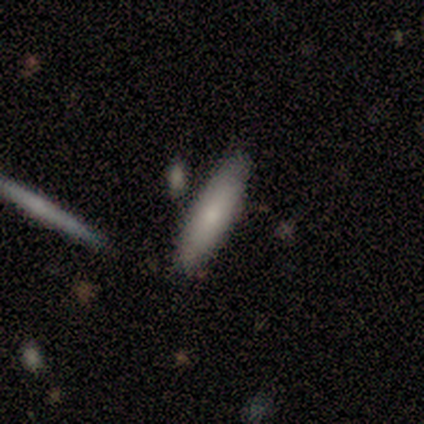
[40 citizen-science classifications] Morphology: type=smooth (70%); roundness=cigar-shaped (68%); merging=none (91%).